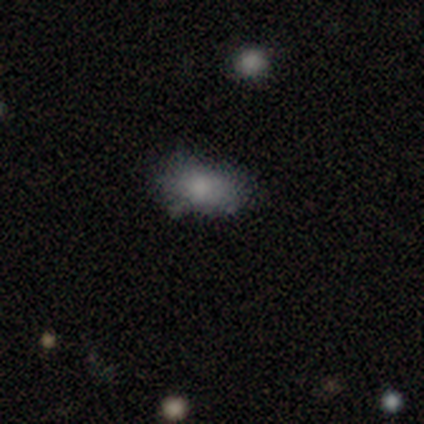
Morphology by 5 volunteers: Overall: smooth (80%). How rounded: in between (100%). Merging: none (50%, tied with minor disturbance).